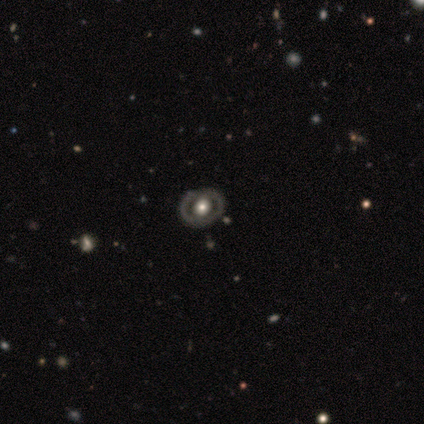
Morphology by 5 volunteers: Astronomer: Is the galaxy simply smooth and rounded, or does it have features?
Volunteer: featured or disk — 60% (runner-up: smooth, 40%).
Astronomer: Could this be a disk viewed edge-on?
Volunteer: no — 100%.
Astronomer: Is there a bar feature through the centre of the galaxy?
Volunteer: no — 100%.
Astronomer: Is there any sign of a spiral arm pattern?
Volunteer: no — 100%.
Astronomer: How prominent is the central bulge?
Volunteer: large — 67%.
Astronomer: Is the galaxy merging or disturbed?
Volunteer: none — 80%.